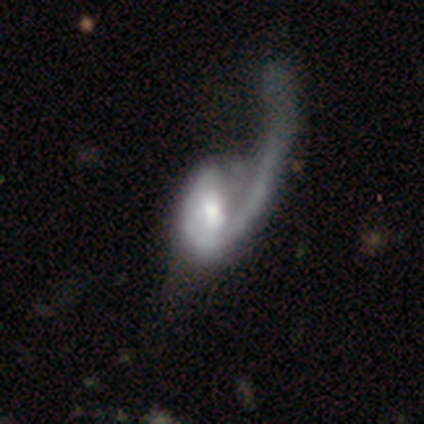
Q: Smooth or featured?
A: featured or disk (80%); runner-up: smooth (10%)
Q: Edge-on disk?
A: no (97%); runner-up: yes (3%)
Q: Bar?
A: no (53%); runner-up: weak (31%)
Q: Spiral arms?
A: yes (81%); runner-up: no (19%)
Q: Spiral winding?
A: loose (73%); runner-up: medium (16%)
Q: Spiral arm count?
A: 1 (84%); runner-up: can't tell (11%)
Q: Bulge size?
A: moderate (49%); runner-up: small (26%)
Q: Merging?
A: major disturbance (57%); runner-up: none (32%)